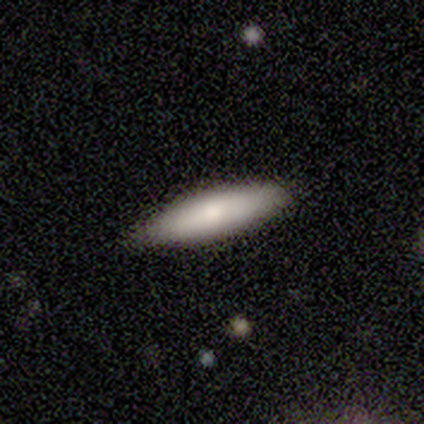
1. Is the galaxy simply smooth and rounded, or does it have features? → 84% smooth, 8% featured or disk, 8% star or artifact.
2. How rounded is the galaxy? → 72% cigar-shaped, 28% in between, 0% round.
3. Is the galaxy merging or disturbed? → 91% none, 9% minor disturbance, 0% major disturbance, 0% merger.